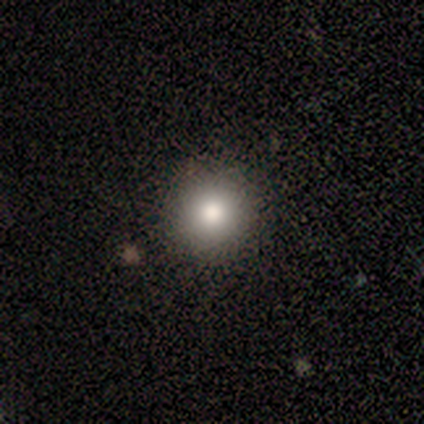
smooth_or_featured: smooth (p=0.60) [alt: featured or disk p=0.20]
how_rounded: round (p=1.00)
merging: none (p=1.00)